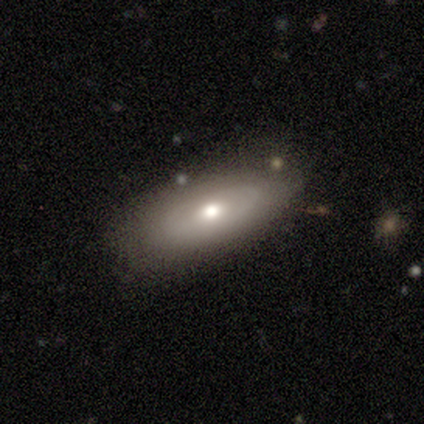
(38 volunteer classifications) This is possibly a smooth galaxy (53%). How rounded: clearly in between (95%). Merging: likely none (66%).